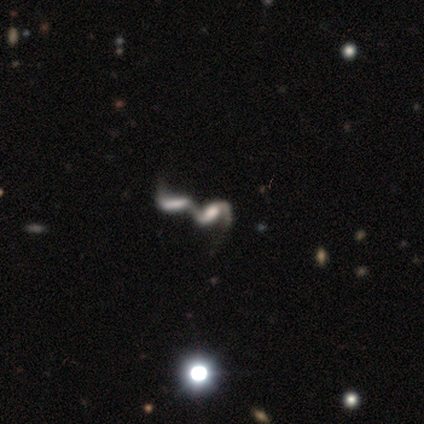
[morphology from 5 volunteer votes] This is clearly a featured or disk galaxy (100%). It is clearly not viewed edge-on (100%). Bar: likely no (60%). Spiral arm pattern: clearly yes (100%). Spiral arm count: clearly 2 (100%). Spiral winding: clearly loose (80%). Central bulge: clearly large (80%). Merging: clearly merger (100%).